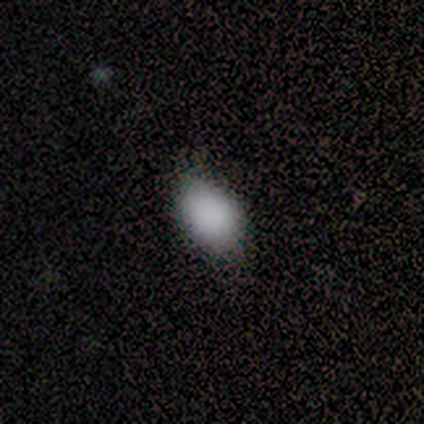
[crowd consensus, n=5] Smooth or featured? 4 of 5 (80%) said smooth. How rounded? 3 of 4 (75%) said in between. Merging? 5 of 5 (100%) said none.